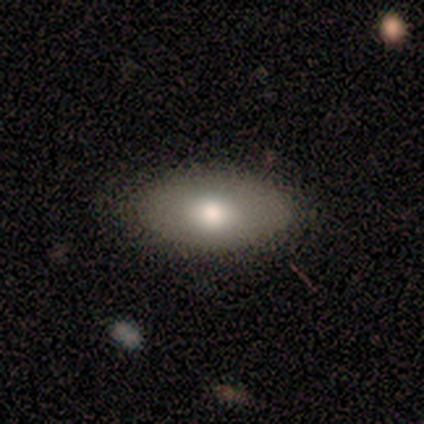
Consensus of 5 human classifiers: Volunteers were most divided on "how rounded": in between: 67%, cigar-shaped: 33%, round: 0%. More confident: merging — none (75%); smooth or featured — smooth (60%).